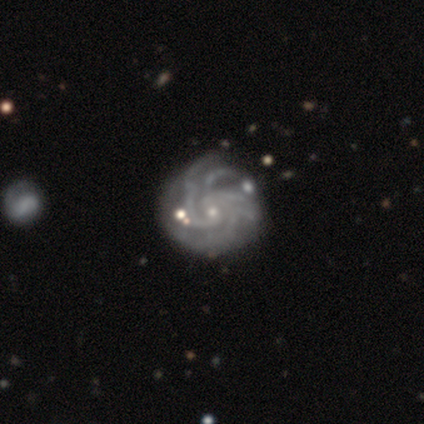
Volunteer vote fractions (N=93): featured or disk 89%, star or artifact 9%, smooth 2%. Down the decision tree: edge-on disk — no (99%); bar — no (70%); spiral arms — yes (99%); spiral arm count — more than 4 (38%); spiral winding — tight (77%); bulge size — small (87%); merging — none (68%).